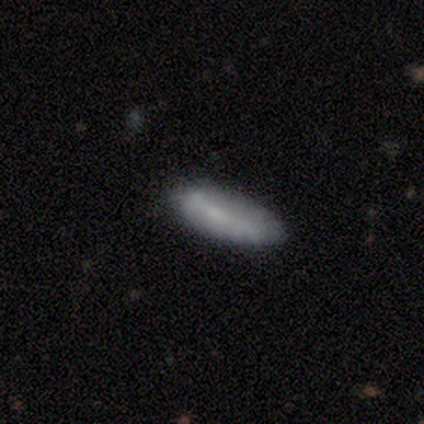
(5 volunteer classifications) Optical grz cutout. It shows a smooth galaxy with no disk features (80%) that is in between round and cigar-shaped (50%, tied with cigar-shaped). Merging: none (100%).